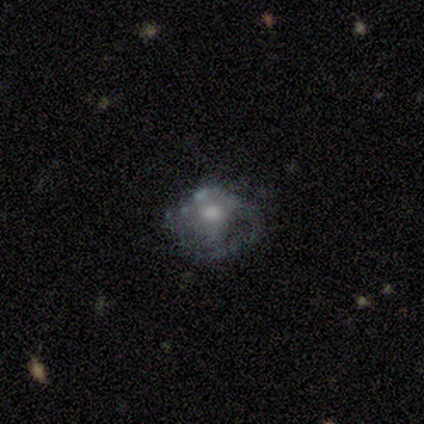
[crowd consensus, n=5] This is clearly a featured or disk galaxy (80%). It is clearly not viewed edge-on (100%). Bar: possibly weak (50%, tied with no). Spiral arm pattern: possibly yes (50%, tied with no). Spiral arm count: clearly 1 (100%). Spiral winding: possibly tight (50%, tied with loose). Central bulge: clearly moderate (100%). Merging: marginally minor disturbance (40%, tied with major disturbance).